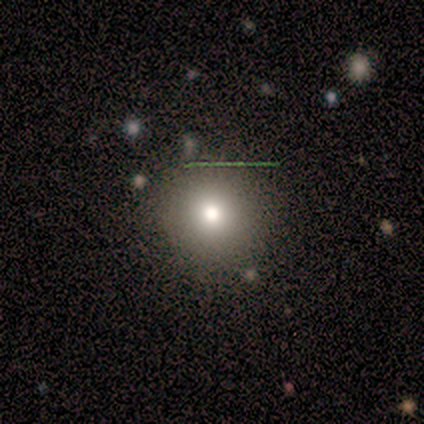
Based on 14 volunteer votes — Morphology: type=smooth (64%); roundness=round (100%); merging=none (91%).